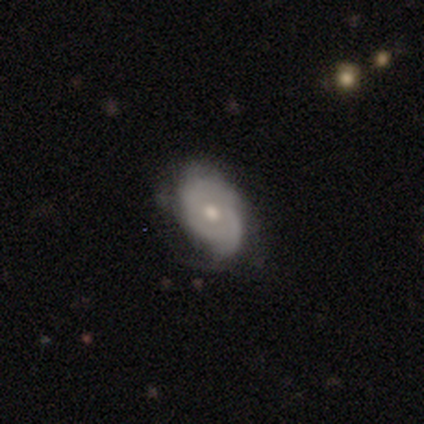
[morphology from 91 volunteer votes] type=featured or disk (68%); edge-on=no (95%); bar=no (90%); spiral arms=yes (76%); winding=tight (62%); arm count=can't tell (47%); bulge=moderate (69%); merging=none (55%).